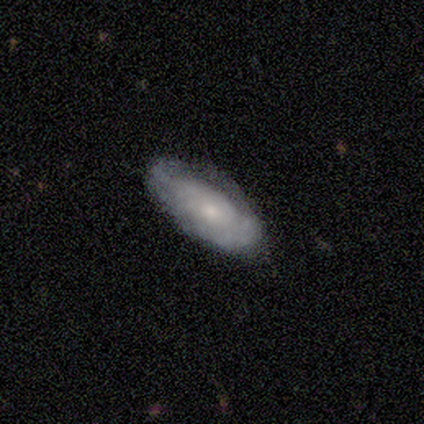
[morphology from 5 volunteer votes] type=smooth (40%, tied with featured or disk); roundness=in between (100%); merging=none (100%).